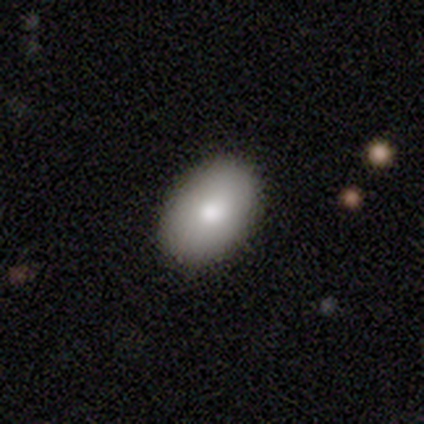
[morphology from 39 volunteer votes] Smooth or featured? 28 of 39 (72%) said smooth. How rounded? 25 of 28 (89%) said in between. Merging? 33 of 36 (92%) said none.